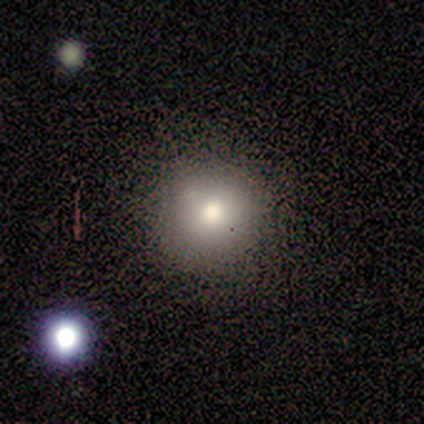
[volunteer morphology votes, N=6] A smooth galaxy with no disk features (100%) that is round (100%). Merging: none (83%).